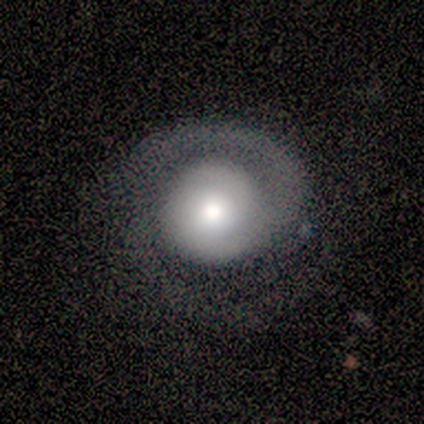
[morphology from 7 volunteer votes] Smooth or featured? featured or disk (86%)
Edge-on disk? no (100%)
Bar? no (100%)
Spiral arms? yes (100%)
Spiral winding? loose (50%)
Spiral arm count? 1 (50%, tied with 2)
Bulge size? moderate (50%)
Merging? none (83%)